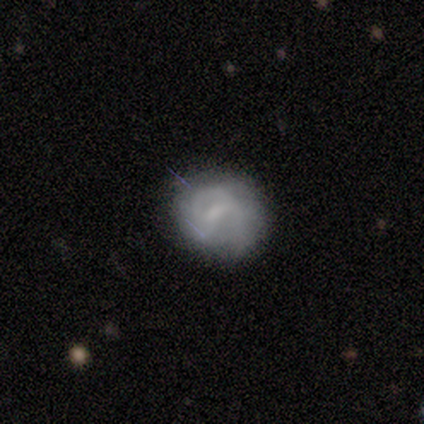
Morphology: type=smooth (50%, tied with star or artifact); roundness=in between (100%); merging=none (50%, tied with minor disturbance).